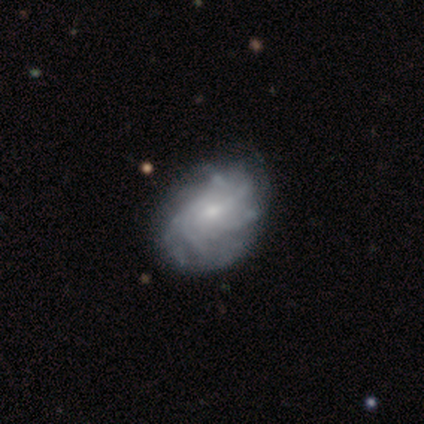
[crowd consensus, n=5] Q: Smooth or featured?
A: featured or disk (100%)
Q: Edge-on disk?
A: no (100%)
Q: Bar?
A: no (80%); runner-up: weak (20%)
Q: Spiral arms?
A: yes (100%)
Q: Spiral winding?
A: tight (60%); runner-up: medium (40%)
Q: Spiral arm count?
A: more than 4 (80%); runner-up: 4 (20%)
Q: Bulge size?
A: small (60%); runner-up: large (20%)
Q: Merging?
A: none (100%)